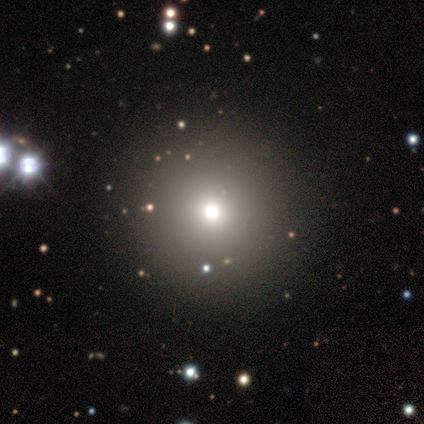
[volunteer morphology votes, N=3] Smooth or featured?
  - smooth: 100% *
  - featured or disk: 0%
  - star or artifact: 0%
How rounded?
  - round: 67% *
  - in between: 33%
  - cigar-shaped: 0%
Merging?
  - none: 67% *
  - minor disturbance: 33%
  - major disturbance: 0%
  - merger: 0%